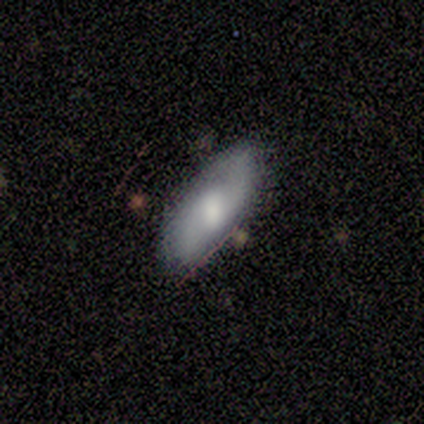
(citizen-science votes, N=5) This is likely a smooth galaxy (60%). How rounded: likely in between (67%). Merging: likely none (60%).